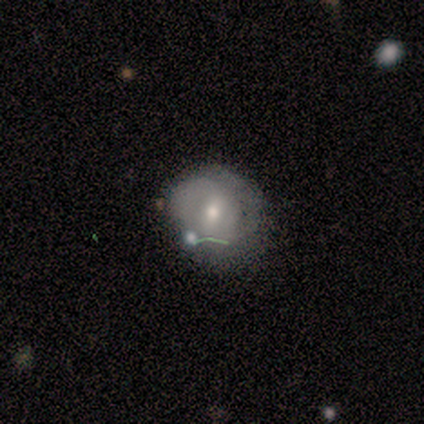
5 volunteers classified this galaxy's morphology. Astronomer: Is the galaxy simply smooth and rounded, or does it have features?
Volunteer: featured or disk — 80%.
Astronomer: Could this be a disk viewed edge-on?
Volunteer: no — 100%.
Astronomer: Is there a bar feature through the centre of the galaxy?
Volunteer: weak — 100%.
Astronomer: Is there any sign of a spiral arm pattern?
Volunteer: yes — 100%.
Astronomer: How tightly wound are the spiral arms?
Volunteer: medium — 75%.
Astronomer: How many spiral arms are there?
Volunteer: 2 — 75%.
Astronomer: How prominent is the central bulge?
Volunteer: small — 75%.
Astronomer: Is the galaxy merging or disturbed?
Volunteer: none — 80%.